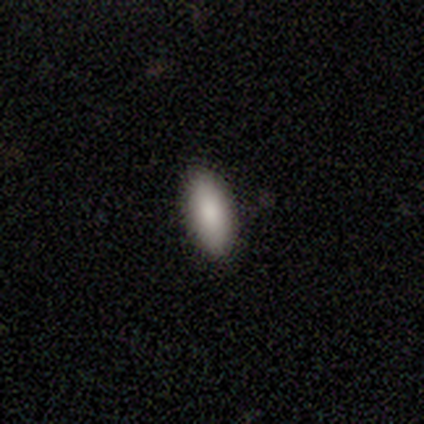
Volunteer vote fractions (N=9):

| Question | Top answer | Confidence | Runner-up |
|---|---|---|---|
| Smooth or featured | smooth | 78% | featured or disk (11%) |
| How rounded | in between | 71% | cigar-shaped (29%) |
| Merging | none | 88% | minor disturbance (12%) |